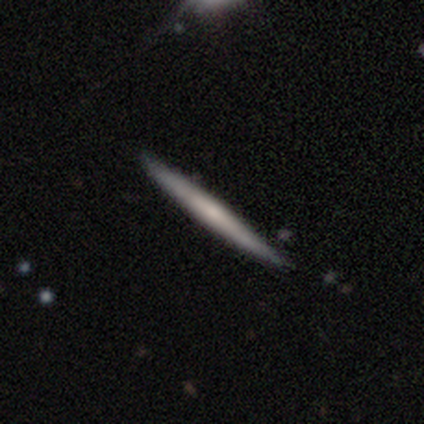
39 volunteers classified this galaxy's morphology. Overall: featured or disk (51%; smooth 49%). Edge-on disk: yes (95%). Edge-on bulge: none (53%; rounded 42%). Merging: none (59%).